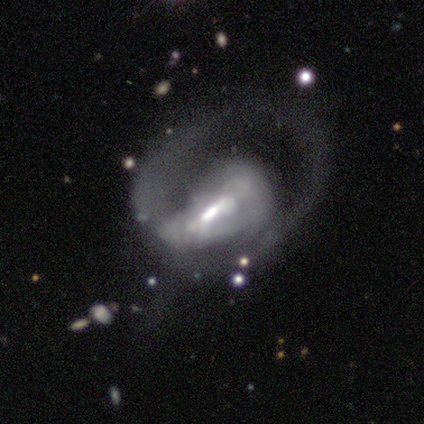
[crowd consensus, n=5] Smooth or featured? featured or disk (80%)
Edge-on disk? no (100%)
Bar? strong (50%, tied with weak)
Spiral arms? yes (100%)
Spiral winding? loose (50%)
Spiral arm count? 1 (100%)
Bulge size? moderate (75%)
Merging? major disturbance (80%)